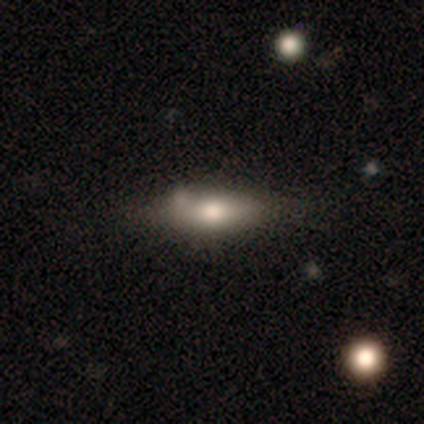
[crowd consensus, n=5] Smooth or featured: featured or disk — 60% (smooth — 20%)
Edge-on disk: yes — 100%
Edge-on bulge: rounded — 100%
Merging: none — 75% (merger — 25%)